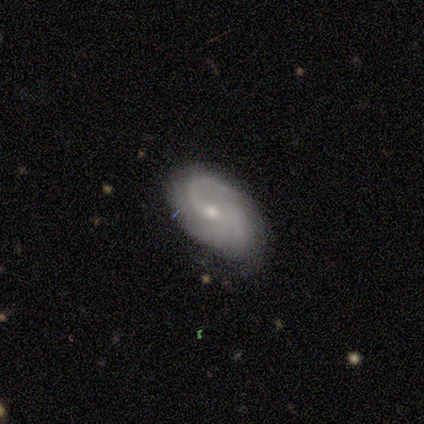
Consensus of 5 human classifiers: A featured or disk galaxy (80%) with a weak bar (67%), 1 (100%) medium (50%, tied with loose) spiral arms (67%) and a small central bulge (67%). Merging: minor disturbance (60%).